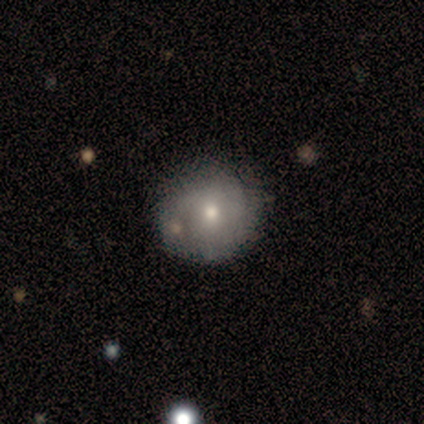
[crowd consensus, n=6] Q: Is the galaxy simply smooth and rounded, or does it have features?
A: smooth — 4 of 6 (67%).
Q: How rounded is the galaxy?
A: round — 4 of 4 (100%).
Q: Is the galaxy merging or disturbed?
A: none — 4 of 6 (67%).